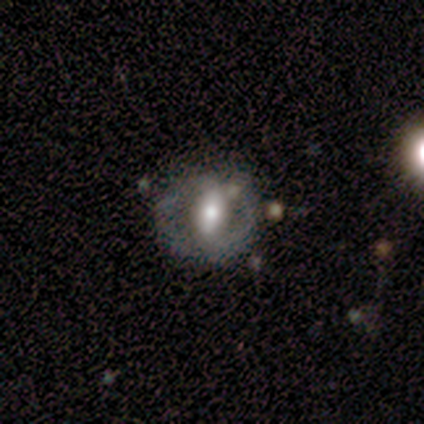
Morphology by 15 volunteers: Q: Smooth or featured?
A: smooth (60%); runner-up: featured or disk (40%)
Q: How rounded?
A: round (67%); runner-up: in between (33%)
Q: Merging?
A: none (53%); runner-up: minor disturbance (33%)